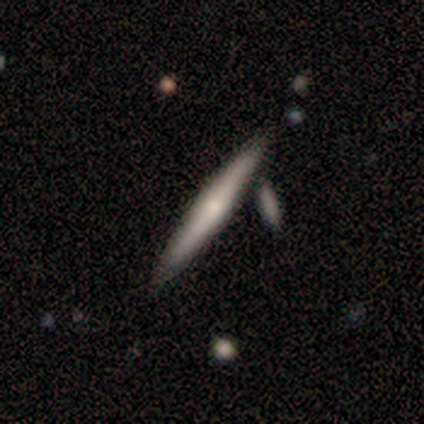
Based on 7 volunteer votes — A featured or disk galaxy (57%) viewed edge-on (75%) with a rounded central bulge (100%). Merging: none (67%).